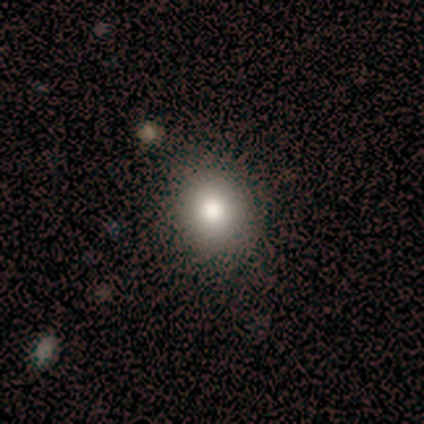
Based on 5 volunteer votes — Smooth or featured? smooth (40%, tied with featured or disk)
How rounded? round (100%)
Merging? none (100%)